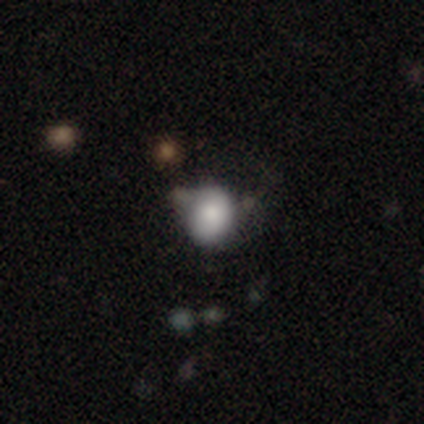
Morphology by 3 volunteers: type=smooth (100%); roundness=in between (67%); merging=none (67%).